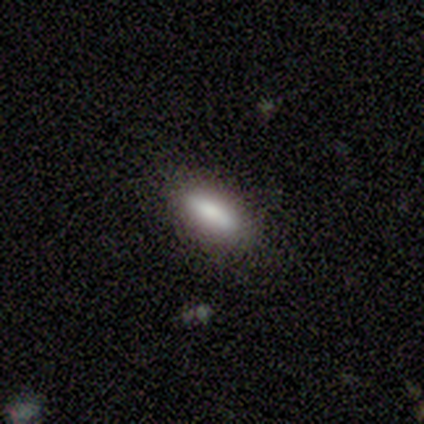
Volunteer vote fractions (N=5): Q: Smooth or featured?
A: smooth (80%); runner-up: featured or disk (20%)
Q: How rounded?
A: in between (50%); tied with: cigar-shaped (50%)
Q: Merging?
A: none (100%)